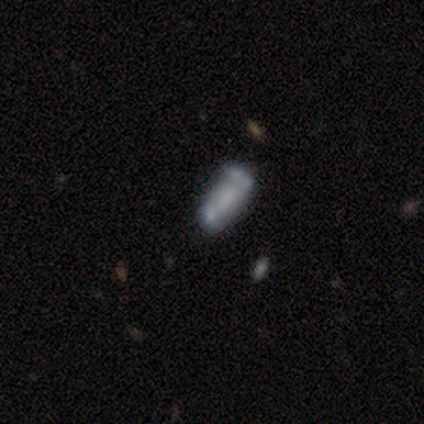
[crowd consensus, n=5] smooth_or_featured: featured or disk (p=0.40) [tied with: star or artifact p=0.40]
disk_edge_on: no (p=1.00)
bar: no (p=1.00)
has_spiral_arms: no (p=1.00)
bulge_size: moderate (p=0.50) [tied with: none p=0.50]
merging: none (p=0.33) [tied with: major disturbance p=0.33, merger p=0.33]